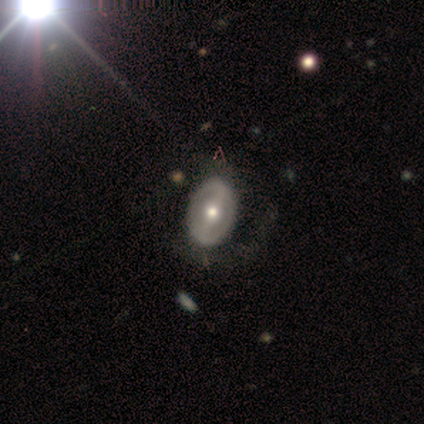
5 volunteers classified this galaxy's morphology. This is clearly a featured or disk galaxy (100%). It is clearly not viewed edge-on (80%). Bar: likely strong (75%). Spiral arm pattern: likely yes (75%). Spiral arm count: clearly 2 (100%). Spiral winding: likely medium (67%). Central bulge: likely moderate (75%). Merging: clearly none (80%).